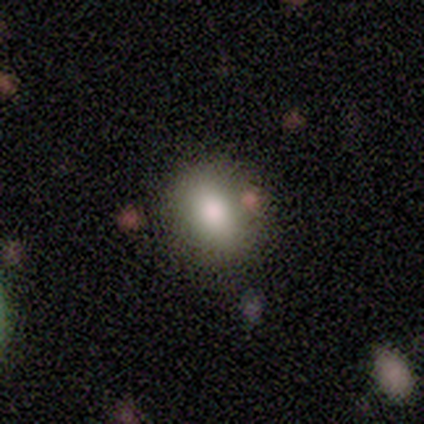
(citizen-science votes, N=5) Smooth or featured: smooth — 60% (star or artifact — 40%)
How rounded: in between — 67% (round — 33%)
Merging: none — 67% (merger — 33%)